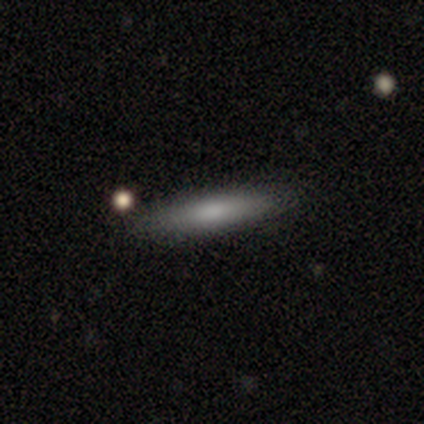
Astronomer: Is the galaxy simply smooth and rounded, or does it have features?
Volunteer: smooth — 40%, tied with featured or disk at 40%.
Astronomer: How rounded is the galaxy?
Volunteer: cigar-shaped — 100%.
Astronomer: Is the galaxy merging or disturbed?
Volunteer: none — 100%.